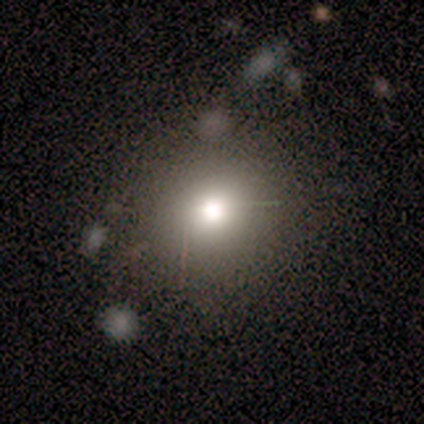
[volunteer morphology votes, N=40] A smooth galaxy with no disk features (68%) that is round (100%).

Vote fractions:
- Smooth or featured? smooth: 68% / star or artifact: 18% / featured or disk: 15%
- How rounded? round: 100% / in between: 0% / cigar-shaped: 0%
- Merging? none: 82% / minor disturbance: 15% / merger: 3% / major disturbance: 0%